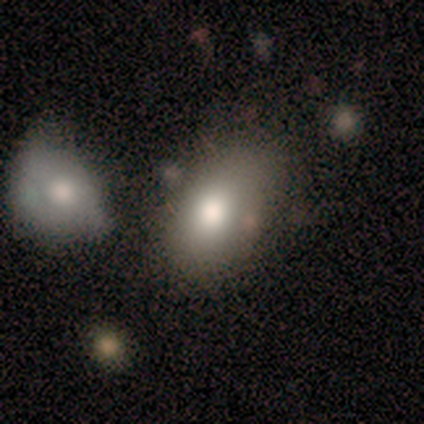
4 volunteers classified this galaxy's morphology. smooth 100%, featured or disk 0%, star or artifact 0%. Down the decision tree: how rounded — in between (100%); merging — none (75%).